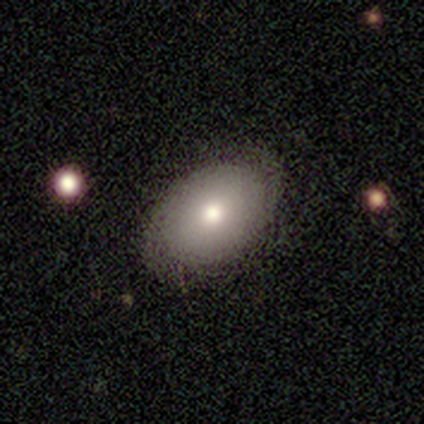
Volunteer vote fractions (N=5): Smooth or featured? 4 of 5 (80%) said featured or disk. Edge-on disk? 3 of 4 (75%) said no. Bar? 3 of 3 (100%) said no. Spiral arms? 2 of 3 (67%) said yes. Spiral winding? 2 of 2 (100%) said tight. Spiral arm count? 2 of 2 (100%) said 2. Bulge size? 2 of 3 (67%) said moderate. Merging? 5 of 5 (100%) said none.